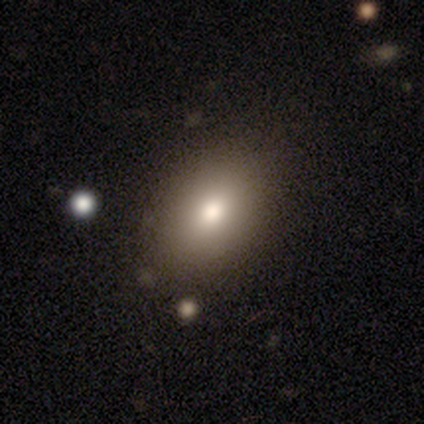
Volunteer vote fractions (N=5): This appears to be a smooth galaxy with no disk features (80%) that is in between round and cigar-shaped (75%). Merging: none (75%).